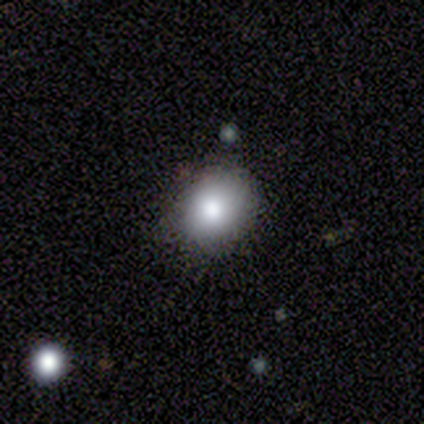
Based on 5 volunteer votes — Smooth or featured? smooth (60%)
How rounded? in between (67%)
Merging? none (67%)